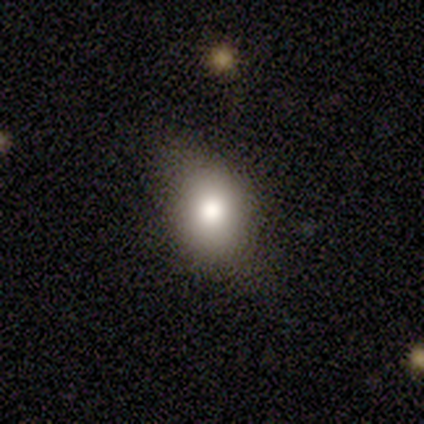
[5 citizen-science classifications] smooth 60%, featured or disk 20%, star or artifact 20%. Down the decision tree: how rounded — round (67%); merging — none (75%).